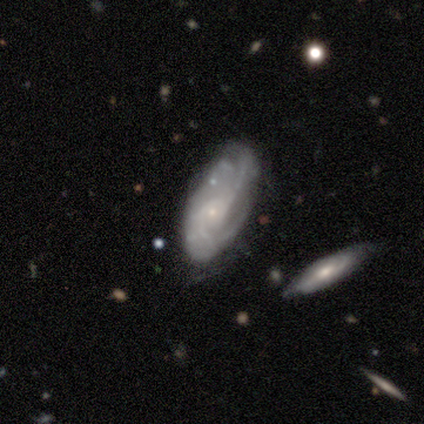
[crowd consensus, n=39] A featured or disk galaxy (79%) with no bar (73%), 2 (43%) medium (50%) spiral arms (93%) and a small central bulge (90%). Merging: none (47%).